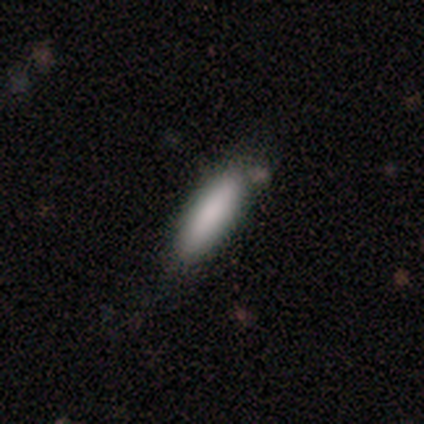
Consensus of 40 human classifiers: Smooth or featured: smooth — 92% (featured or disk — 8%)
How rounded: cigar-shaped — 62% (in between — 38%)
Merging: none — 60% (minor disturbance — 38%)